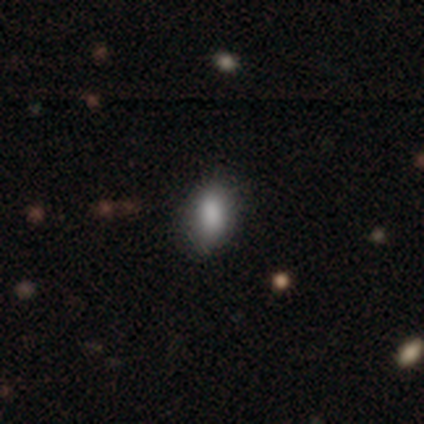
This is clearly a smooth galaxy (86%). How rounded: clearly in between (100%). Merging: clearly none (83%).